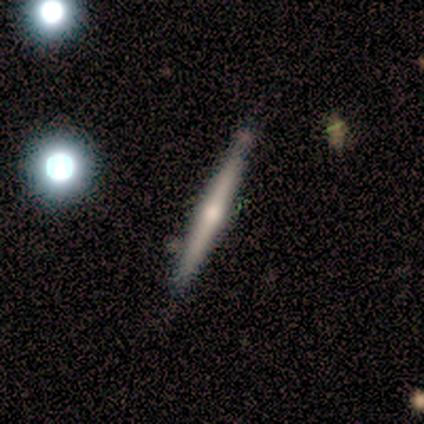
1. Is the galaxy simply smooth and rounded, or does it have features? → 50% featured or disk, 25% smooth, 25% star or artifact.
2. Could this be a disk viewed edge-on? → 100% yes, 0% no.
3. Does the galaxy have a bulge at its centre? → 100% rounded, 0% boxy, 0% none.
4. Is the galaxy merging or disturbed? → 100% none, 0% minor disturbance, 0% major disturbance, 0% merger.